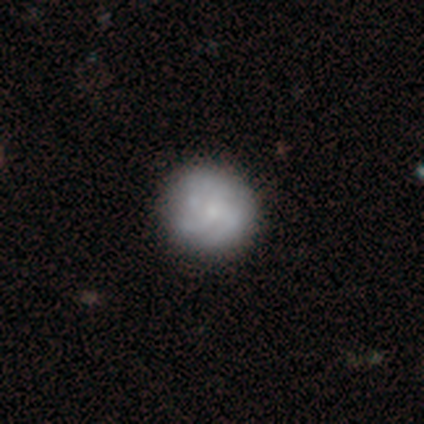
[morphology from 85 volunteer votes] Q: Smooth or featured?
A: featured or disk (53%); runner-up: smooth (42%)
Q: Edge-on disk?
A: no (98%); runner-up: yes (2%)
Q: Bar?
A: no (80%); runner-up: weak (20%)
Q: Spiral arms?
A: yes (73%); runner-up: no (27%)
Q: Spiral winding?
A: medium (47%); runner-up: tight (41%)
Q: Spiral arm count?
A: 4 (38%); runner-up: 3 (28%)
Q: Bulge size?
A: small (68%); runner-up: moderate (25%)
Q: Merging?
A: none (83%); runner-up: minor disturbance (11%)